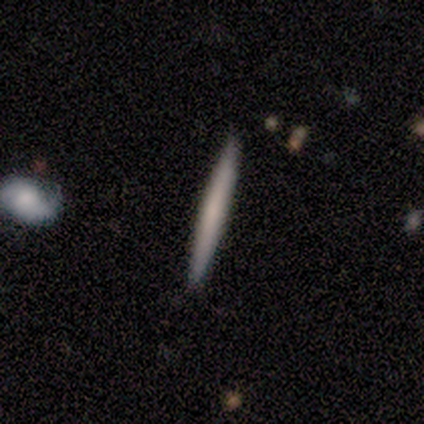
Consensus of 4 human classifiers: Q: Smooth or featured?
A: featured or disk (50%); runner-up: smooth (25%)
Q: Edge-on disk?
A: yes (100%)
Q: Edge-on bulge?
A: none (100%)
Q: Merging?
A: none (100%)